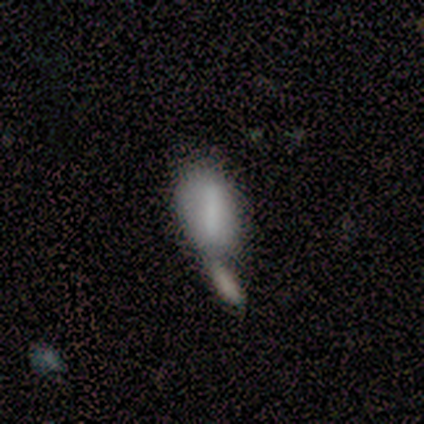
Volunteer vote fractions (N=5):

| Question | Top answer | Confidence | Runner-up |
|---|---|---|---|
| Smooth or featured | smooth | 60% | featured or disk (40%) |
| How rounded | in between | 100% | — |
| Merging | merger | 60% | none (20%) |